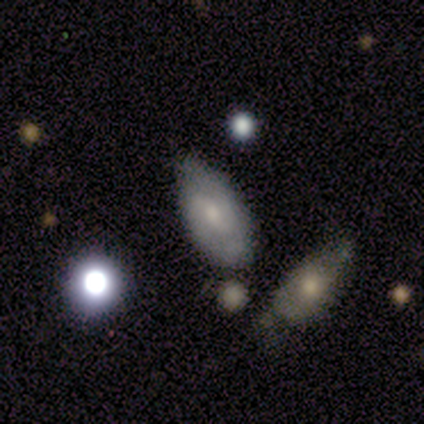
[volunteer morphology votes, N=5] This is likely a featured or disk galaxy (60%). It is clearly not viewed edge-on (100%). Bar: marginally strong (33%, tied with weak and no). Spiral arm pattern: likely yes (67%). Spiral arm count: clearly 2 (100%). Spiral winding: possibly tight (50%, tied with medium). Central bulge: likely small (67%). Merging: likely none (60%).